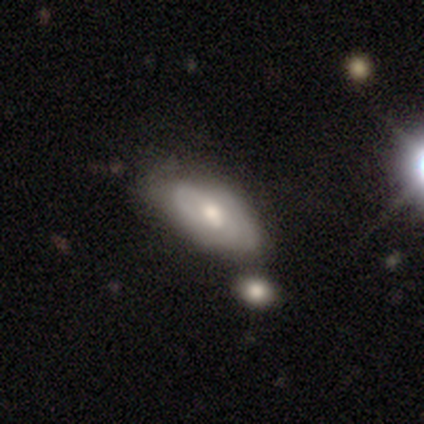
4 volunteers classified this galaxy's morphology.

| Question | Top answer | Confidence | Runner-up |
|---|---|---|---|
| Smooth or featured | smooth | 50% | tied: featured or disk (50%) |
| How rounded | in between | 50% | tied: cigar-shaped (50%) |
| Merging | none | 75% | major disturbance (25%) |